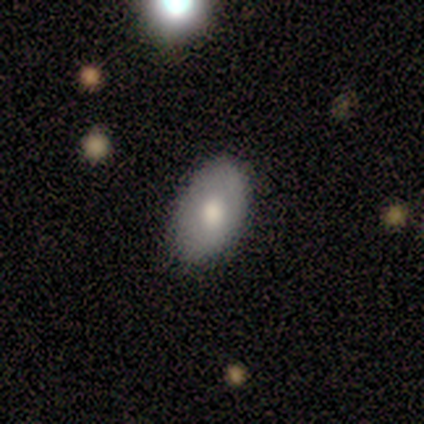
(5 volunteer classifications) Smooth or featured? smooth (60%)
How rounded? in between (100%)
Merging? none (100%)